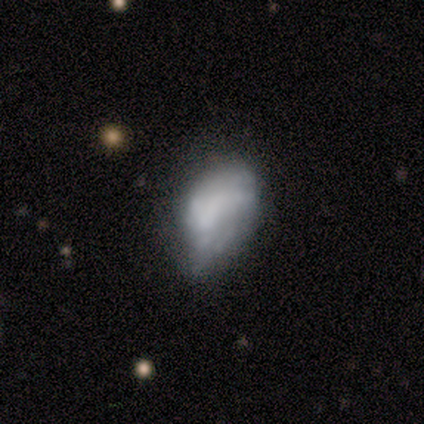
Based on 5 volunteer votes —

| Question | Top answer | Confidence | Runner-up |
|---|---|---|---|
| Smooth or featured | smooth | 80% | featured or disk (20%) |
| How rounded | in between | 75% | round (25%) |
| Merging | minor disturbance | 60% | none (40%) |